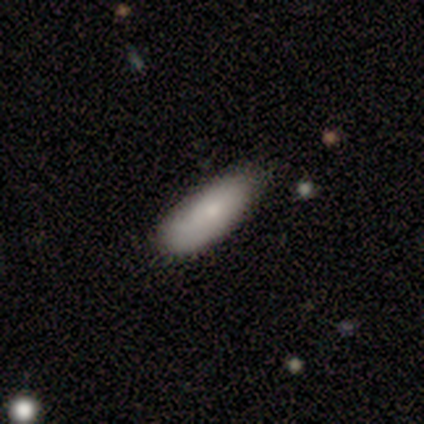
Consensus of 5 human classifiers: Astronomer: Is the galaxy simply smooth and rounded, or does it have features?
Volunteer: smooth — 80%.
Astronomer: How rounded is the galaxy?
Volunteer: in between — 100%.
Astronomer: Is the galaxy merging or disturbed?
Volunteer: none — 50%, tied with minor disturbance at 50%.